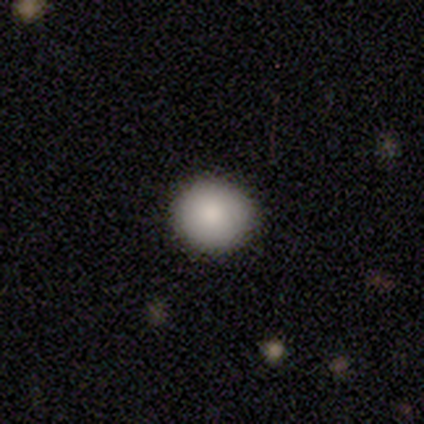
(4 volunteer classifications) This is clearly a smooth galaxy (100%). How rounded: clearly round (100%). Merging: likely none (75%).